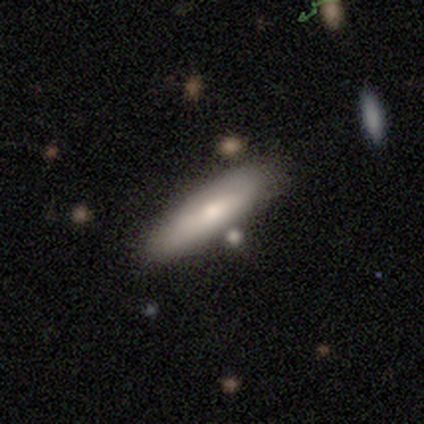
This is likely a smooth galaxy (74%). How rounded: likely cigar-shaped (61%). Merging: likely none (79%).